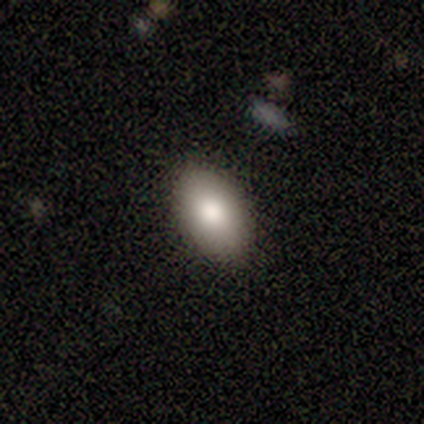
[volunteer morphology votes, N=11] smooth 91%, featured or disk 9%, star or artifact 0%. Down the decision tree: how rounded — in between (90%); merging — none (82%).